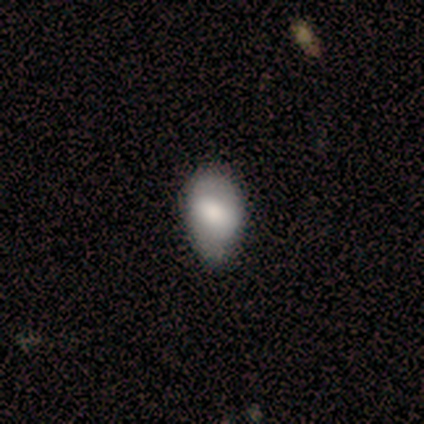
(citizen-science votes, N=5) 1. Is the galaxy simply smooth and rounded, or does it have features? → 60% smooth, 40% featured or disk, 0% star or artifact.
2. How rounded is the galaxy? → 100% in between, 0% round, 0% cigar-shaped.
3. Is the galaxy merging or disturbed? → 60% minor disturbance, 20% none, 20% major disturbance, 0% merger.